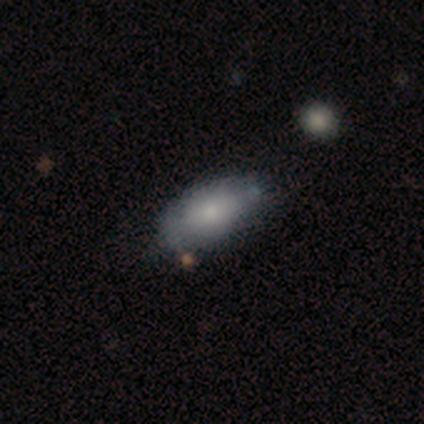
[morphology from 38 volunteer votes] This is likely a smooth galaxy (74%). How rounded: clearly in between (93%). Merging: likely none (61%).